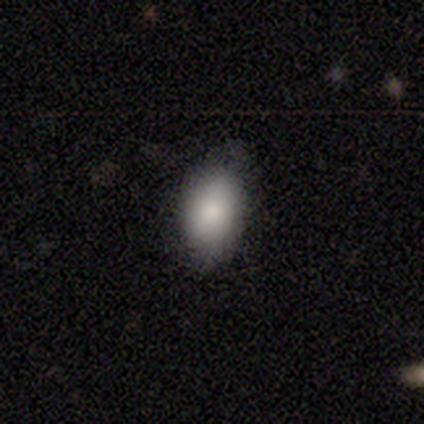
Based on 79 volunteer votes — smooth 78%, star or artifact 11%, featured or disk 10%. Down the decision tree: how rounded — in between (92%); merging — none (77%).